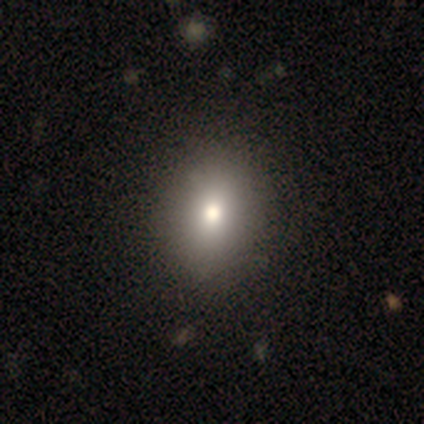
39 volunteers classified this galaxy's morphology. Volunteers were most divided on "how rounded": round: 53%, in between: 47%, cigar-shaped: 0%. More confident: smooth or featured — smooth (77%); merging — none (56%).